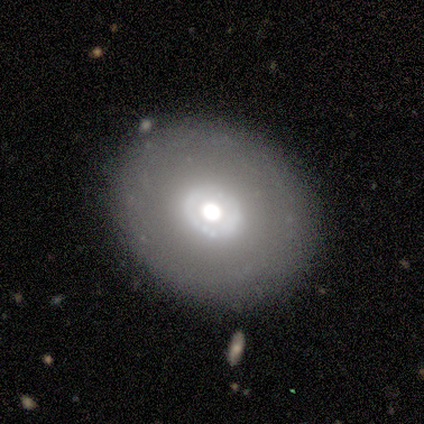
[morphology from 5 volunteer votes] A smooth galaxy with no disk features (60%) that is round (100%). Merging: none (80%).